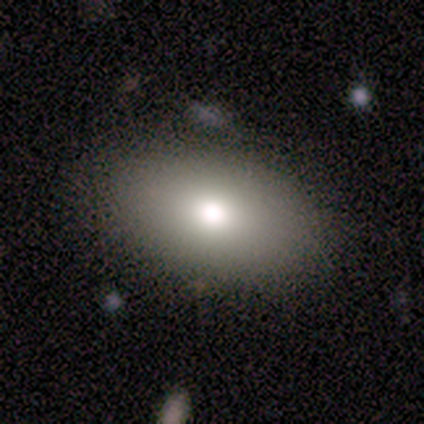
smooth_or_featured: smooth (p=1.00)
how_rounded: in between (p=1.00)
merging: none (p=0.80) [alt: major disturbance p=0.20]